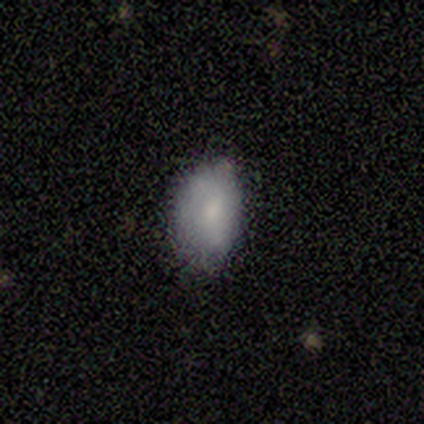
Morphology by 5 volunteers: Smooth or featured? smooth (40%, tied with star or artifact)
How rounded? round (50%, tied with in between)
Merging? none (67%)